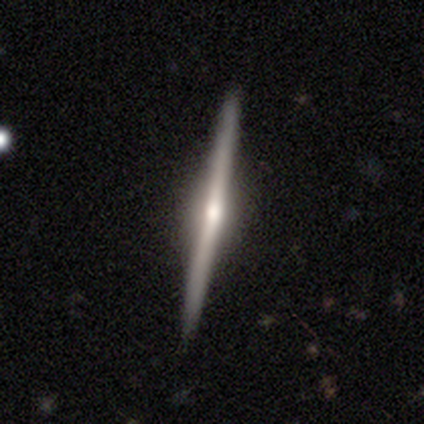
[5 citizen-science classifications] Q: Smooth or featured?
A: featured or disk (100%)
Q: Edge-on disk?
A: yes (100%)
Q: Edge-on bulge?
A: rounded (80%); runner-up: none (20%)
Q: Merging?
A: none (80%); runner-up: minor disturbance (20%)